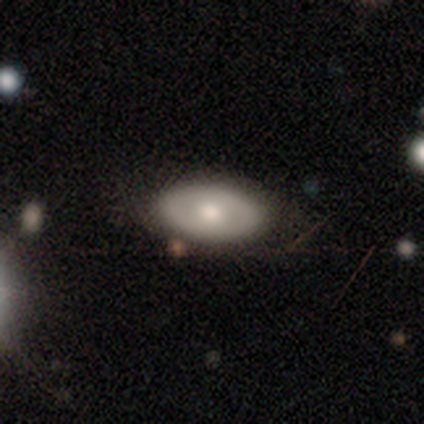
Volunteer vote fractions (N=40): smooth 60%, featured or disk 38%, star or artifact 2%. Down the decision tree: how rounded — in between (92%); merging — none (62%).